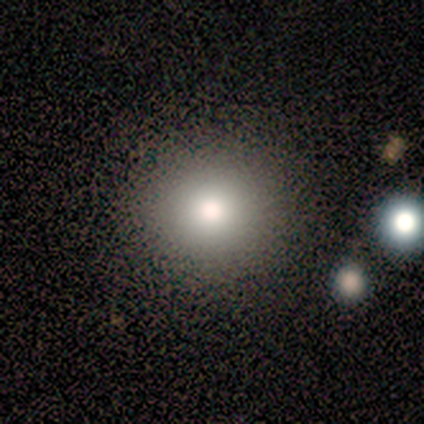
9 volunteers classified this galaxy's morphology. smooth_or_featured: smooth (p=0.44) [tied with: featured or disk p=0.44]
how_rounded: round (p=1.00)
merging: none (p=0.75) [alt: merger p=0.25]